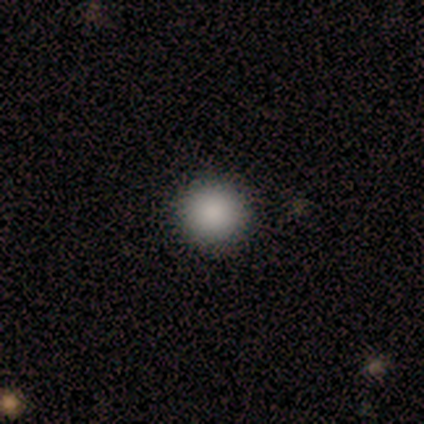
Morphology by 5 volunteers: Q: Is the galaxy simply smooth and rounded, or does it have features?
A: smooth — 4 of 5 (80%).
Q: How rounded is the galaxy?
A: round — 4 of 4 (100%).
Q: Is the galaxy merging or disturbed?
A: none — 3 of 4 (75%).